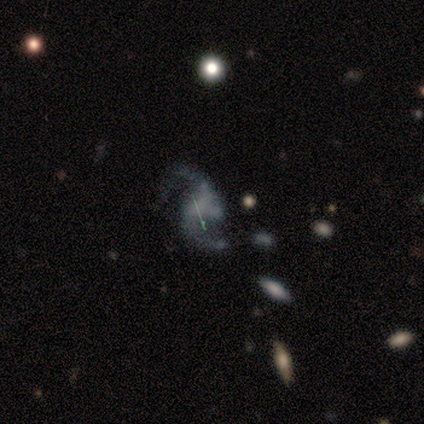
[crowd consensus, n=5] Smooth or featured: featured or disk — 80% (star or artifact — 20%)
Edge-on disk: no — 100%
Bar: no — 75% (weak — 25%)
Spiral arms: yes — 100%
Spiral winding: medium — 50% (tied with loose — 50%)
Spiral arm count: 2 — 100%
Bulge size: none — 100%
Merging: minor disturbance — 50% (tied with major disturbance — 50%)